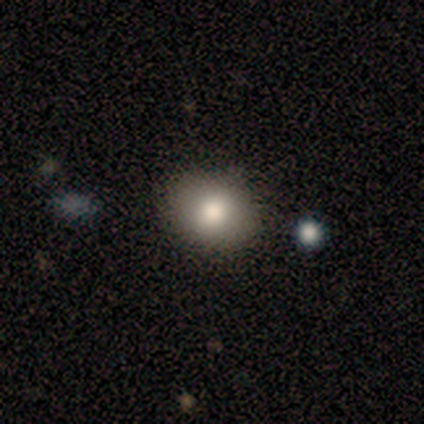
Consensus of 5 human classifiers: Smooth or featured: smooth — 100%
How rounded: round — 80% (in between — 20%)
Merging: none — 100%